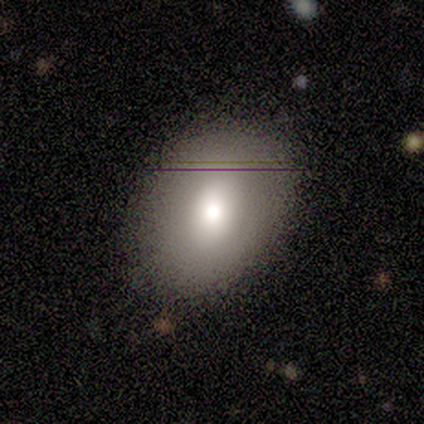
Overall: smooth (83%). How rounded: in between (80%). Merging: none (83%).